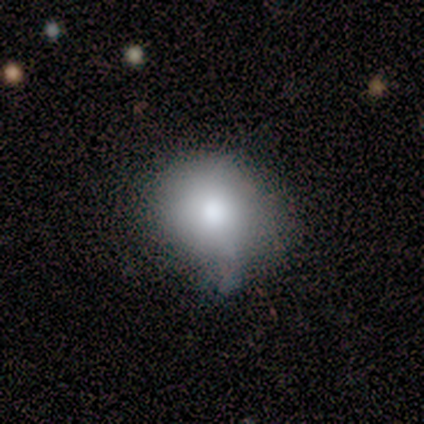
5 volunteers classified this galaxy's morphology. smooth-or-featured: smooth: 100% | featured or disk: 0% | star or artifact: 0%
  how-rounded: round: 100% | in between: 0% | cigar-shaped: 0%
  merging: none: 80% | minor disturbance: 20% | major disturbance: 0% | merger: 0%